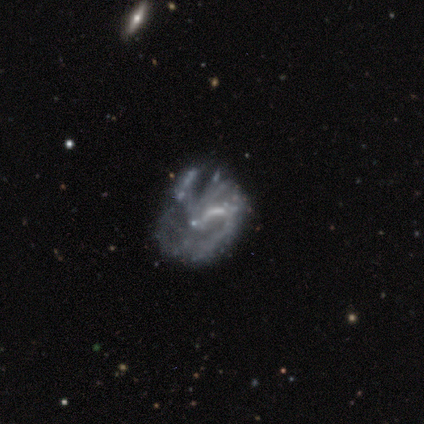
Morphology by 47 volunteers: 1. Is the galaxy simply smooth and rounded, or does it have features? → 77% featured or disk, 17% star or artifact, 6% smooth.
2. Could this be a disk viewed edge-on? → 100% no, 0% yes.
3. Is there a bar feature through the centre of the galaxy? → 53% no, 39% weak, 8% strong.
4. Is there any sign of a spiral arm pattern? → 53% no, 47% yes.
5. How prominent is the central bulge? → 61% none, 22% small, 17% moderate, 0% dominant, 0% large.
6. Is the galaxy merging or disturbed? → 33% major disturbance, 31% minor disturbance, 28% none, 8% merger.